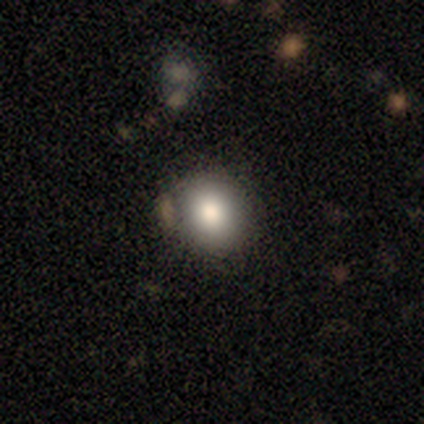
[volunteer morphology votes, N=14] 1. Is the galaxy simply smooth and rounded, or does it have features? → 79% smooth, 14% star or artifact, 7% featured or disk.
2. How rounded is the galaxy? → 73% round, 18% in between, 9% cigar-shaped.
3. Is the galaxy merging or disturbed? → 67% none, 33% minor disturbance, 0% major disturbance, 0% merger.